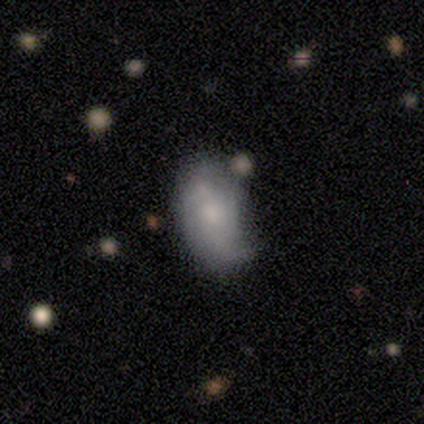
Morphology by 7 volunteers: Volunteers were most divided on "merging": none: 57%, minor disturbance: 29%, major disturbance: 14%, merger: 0%. More confident: how rounded — in between (80%); smooth or featured — smooth (71%).